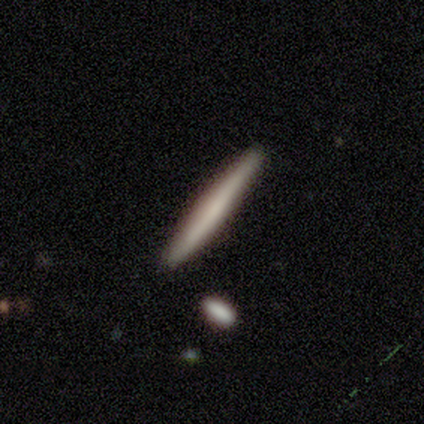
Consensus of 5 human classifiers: A smooth galaxy with no disk features (80%) that is cigar-shaped (100%).

Vote fractions:
- Smooth or featured? smooth: 80% / featured or disk: 20% / star or artifact: 0%
- How rounded? cigar-shaped: 100% / round: 0% / in between: 0%
- Merging? none: 100% / minor disturbance: 0% / major disturbance: 0% / merger: 0%